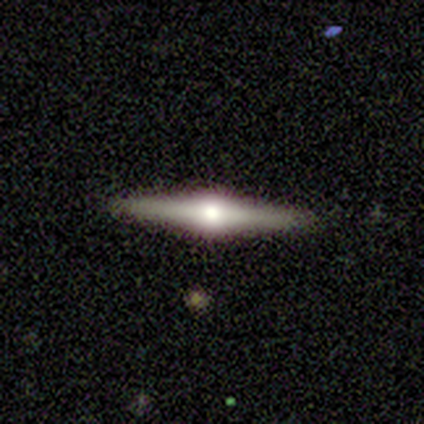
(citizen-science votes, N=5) This is likely a featured or disk galaxy (60%). It is clearly viewed edge-on (100%). Edge-on bulge: clearly rounded (100%). Merging: likely none (75%).